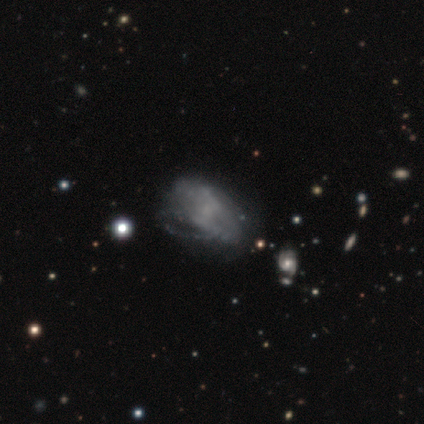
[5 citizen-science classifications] This appears to be a smooth galaxy with no disk features (40%, tied with featured or disk) that is round (50%, tied with in between). Merging: none (50%).